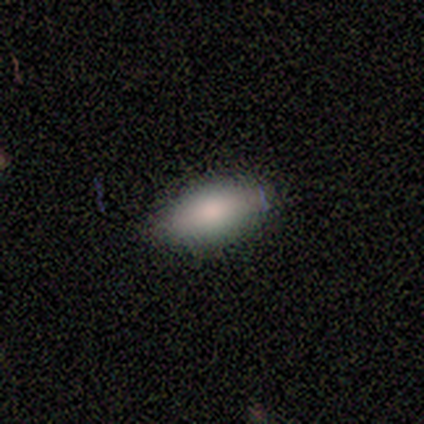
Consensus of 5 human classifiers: Volunteers were most divided on "merging": none: 75%, major disturbance: 25%, minor disturbance: 0%, merger: 0%. More confident: how rounded — in between (100%); smooth or featured — smooth (80%).